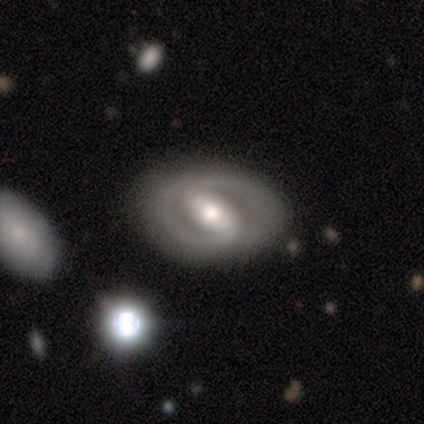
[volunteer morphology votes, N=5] A featured or disk galaxy (100%) with a weak bar (50%), 2 (75%) loose (75%) spiral arms (100%) and a moderate central bulge (75%).

Vote fractions:
- Smooth or featured? featured or disk: 100% / smooth: 0% / star or artifact: 0%
- Edge-on disk? no: 80% / yes: 20%
- Bar? weak: 50% / strong: 25% / no: 25%
- Spiral arms? yes: 100% / no: 0%
- Spiral winding? loose: 75% / tight: 25% / medium: 0%
- Spiral arm count? 2: 75% / 1: 25% / 3: 0% / 4: 0% / more than 4: 0% / can't tell: 0%
- Bulge size? moderate: 75% / small: 25% / dominant: 0% / large: 0% / none: 0%
- Merging? none: 80% / minor disturbance: 20% / major disturbance: 0% / merger: 0%